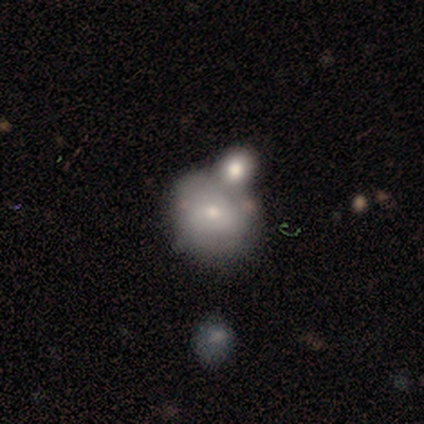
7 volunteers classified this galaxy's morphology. smooth 71%, featured or disk 14%, star or artifact 14%. Down the decision tree: how rounded — round (60%); merging — merger (67%).